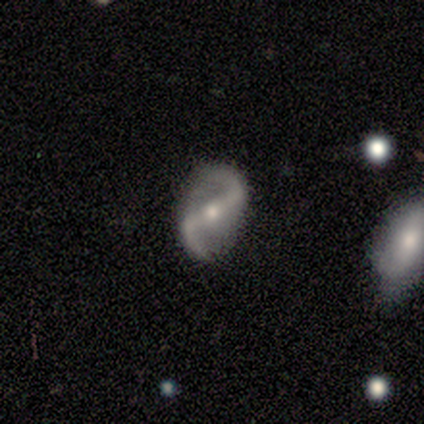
This is clearly a featured or disk galaxy (100%). It is clearly not viewed edge-on (100%). Bar: likely strong (75%). Spiral arm pattern: clearly yes (100%). Spiral arm count: clearly 2 (100%). Spiral winding: likely medium (75%). Central bulge: likely moderate (75%). Merging: clearly none (100%).